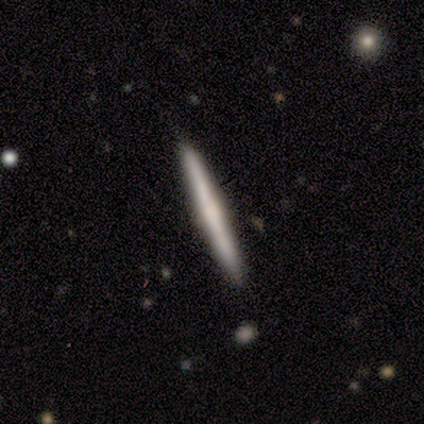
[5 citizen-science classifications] Smooth or featured: featured or disk — 60% (smooth — 20%)
Edge-on disk: yes — 100%
Edge-on bulge: rounded — 67% (boxy — 33%)
Merging: none — 100%